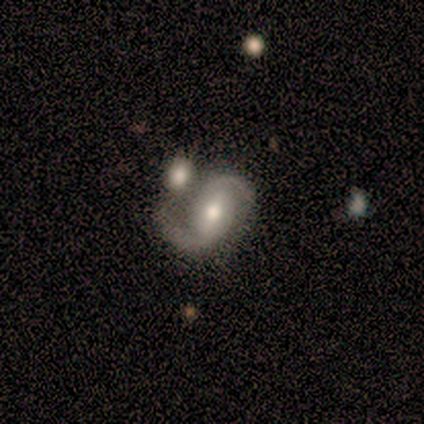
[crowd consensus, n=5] smooth-or-featured: featured or disk: 80% | smooth: 20% | star or artifact: 0%
  disk-edge-on: no: 100% | yes: 0%
    bar: strong: 50% (tied) | weak: 50% (tied) | no: 0%
    has-spiral-arms: yes: 100% | no: 0%
      spiral-winding: medium: 50% | tight: 25% | loose: 25%
      spiral-arm-count: 2: 100% | 1: 0% | 3: 0% | 4: 0% | more than 4: 0% | can't tell: 0%
    bulge-size: moderate: 75% | small: 25% | dominant: 0% | large: 0% | none: 0%
  merging: none: 60% | merger: 40% | minor disturbance: 0% | major disturbance: 0%